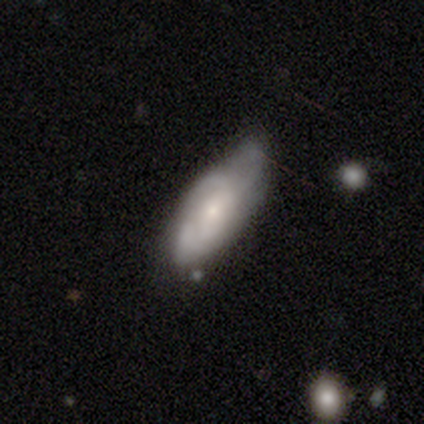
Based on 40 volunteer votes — A featured or disk galaxy (65%) with no bar (77%), medium (50%) spiral arms (73%) and a small central bulge (73%). Merging: none (50%).